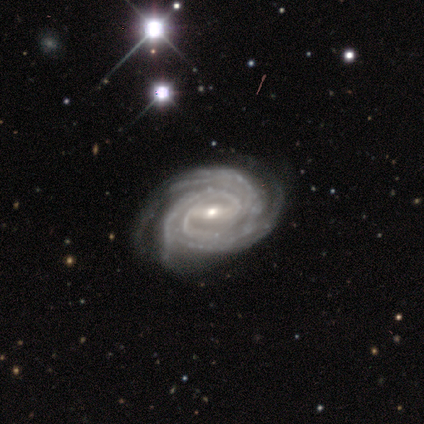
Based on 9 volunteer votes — This appears to be a featured or disk galaxy (89%) with a strong bar (62%), 3 (75%) tight (100%) spiral arms (100%) and a small central bulge (62%). Merging: none (89%).